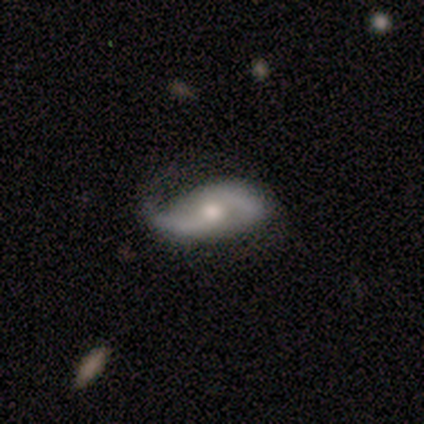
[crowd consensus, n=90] Morphology: type=featured or disk (78%); edge-on=no (91%); bar=no (58%); spiral arms=yes (92%); winding=loose (56%); arm count=2 (86%); bulge=moderate (67%); merging=none (62%).